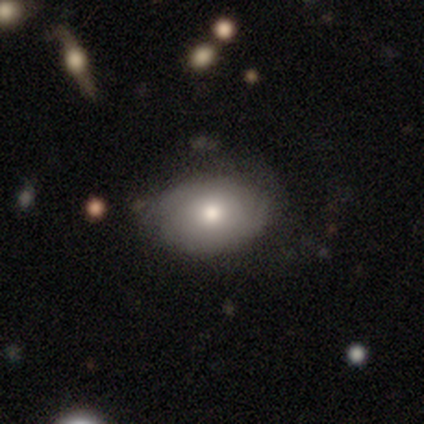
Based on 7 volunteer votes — A smooth galaxy with no disk features (71%) that is in between round and cigar-shaped (80%). Merging: none (57%).